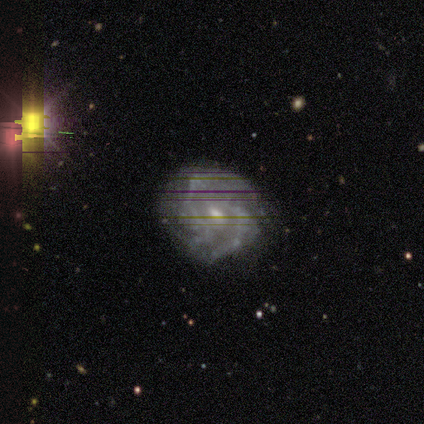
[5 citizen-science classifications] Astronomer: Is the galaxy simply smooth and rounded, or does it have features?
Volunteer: featured or disk — 60% (runner-up: star or artifact, 40%).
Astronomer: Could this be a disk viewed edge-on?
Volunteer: no — 100%.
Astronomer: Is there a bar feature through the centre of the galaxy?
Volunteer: no — 67%.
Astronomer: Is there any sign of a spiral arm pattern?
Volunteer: yes — 67%.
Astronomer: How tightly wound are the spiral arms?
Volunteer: tight — 50%, tied with medium at 50%.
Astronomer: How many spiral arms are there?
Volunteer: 2 — 100%.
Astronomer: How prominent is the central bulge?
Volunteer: moderate — 67%.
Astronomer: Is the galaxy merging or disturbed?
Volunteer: none — 67%.